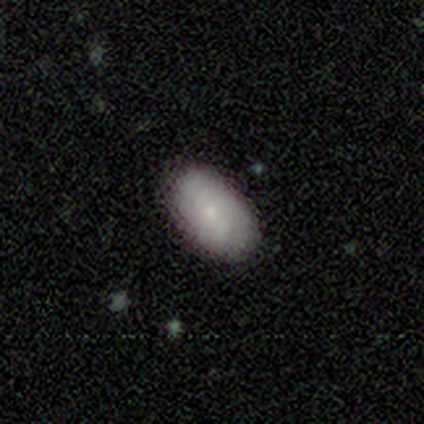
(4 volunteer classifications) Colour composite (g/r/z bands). It shows a smooth galaxy with no disk features (100%) that is in between round and cigar-shaped (100%). Merging: none (100%).